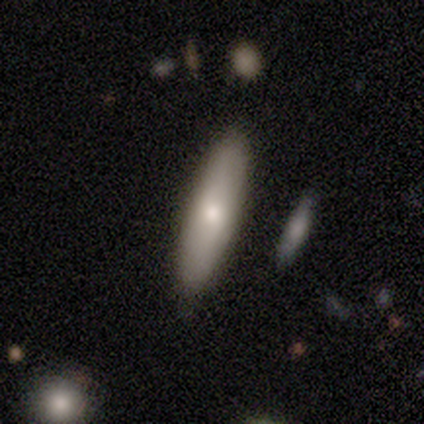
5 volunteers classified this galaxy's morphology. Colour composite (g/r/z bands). It shows a smooth galaxy with no disk features (60%) that is cigar-shaped (67%). Merging: none (100%).